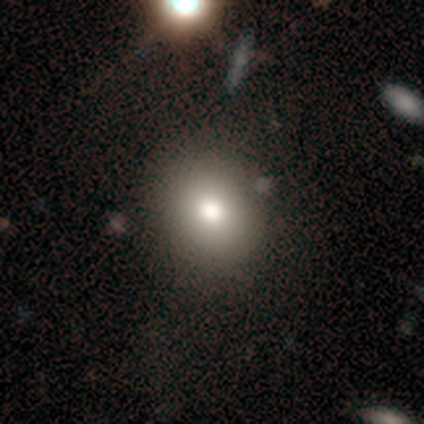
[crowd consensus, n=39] Smooth or featured? 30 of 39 (77%) said smooth. How rounded? 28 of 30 (93%) said round. Merging? 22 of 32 (69%) said none.